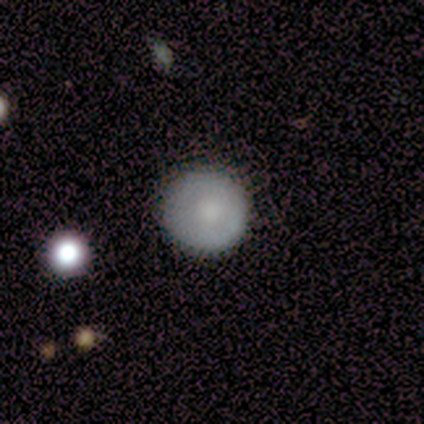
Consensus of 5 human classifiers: Q: Smooth or featured?
A: smooth (100%)
Q: How rounded?
A: round (80%); runner-up: in between (20%)
Q: Merging?
A: none (80%); runner-up: minor disturbance (20%)